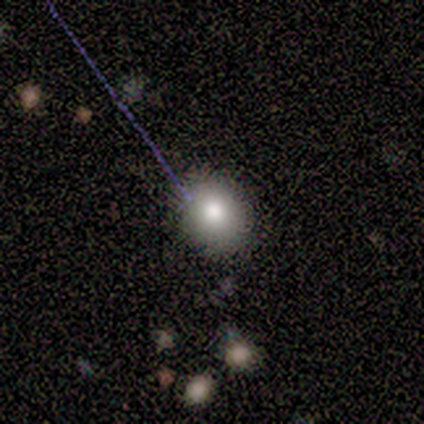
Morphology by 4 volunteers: Smooth or featured? 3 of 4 (75%) said smooth. How rounded? 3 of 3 (100%) said round. Merging? 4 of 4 (100%) said none.